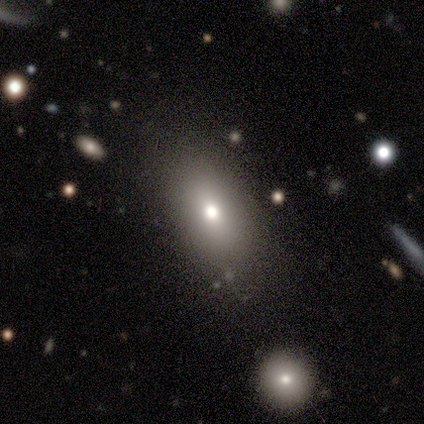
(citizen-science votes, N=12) Smooth or featured: smooth — 67% (featured or disk — 25%)
How rounded: in between — 100%
Merging: none — 82% (minor disturbance — 9%)